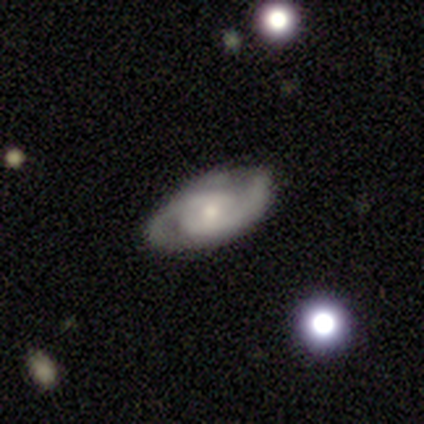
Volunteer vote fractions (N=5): Smooth or featured?
  - featured or disk: 100% *
  - smooth: 0%
  - star or artifact: 0%
Edge-on disk?
  - no: 100% *
  - yes: 0%
Bar?
  - no: 80% *
  - weak: 20%
  - strong: 0%
Spiral arms?
  - yes: 100% *
  - no: 0%
Spiral winding?
  - tight: 60% *
  - medium: 20%
  - loose: 20%
Spiral arm count?
  - 2: 100% *
  - 1: 0%
  - 3: 0%
  - 4: 0%
  - more than 4: 0%
  - can't tell: 0%
Bulge size?
  - small: 60% *
  - moderate: 40%
  - dominant: 0%
  - large: 0%
  - none: 0%
Merging?
  - none: 60% *
  - minor disturbance: 40%
  - major disturbance: 0%
  - merger: 0%